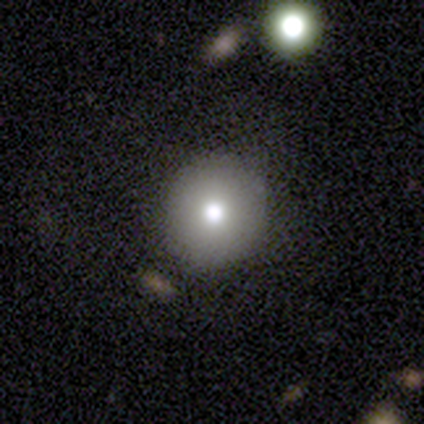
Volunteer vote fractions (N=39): smooth-or-featured: smooth: 77% | star or artifact: 21% | featured or disk: 3%
  how-rounded: round: 93% | in between: 7% | cigar-shaped: 0%
  merging: none: 97% | merger: 3% | minor disturbance: 0% | major disturbance: 0%